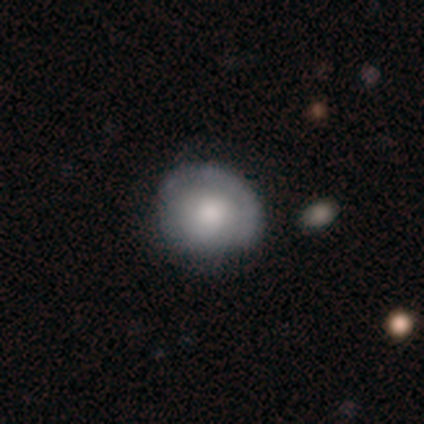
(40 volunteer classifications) A smooth galaxy with no disk features (50%) that is round (75%). Merging: none (54%).